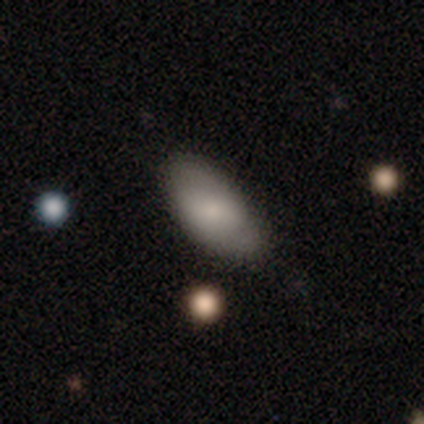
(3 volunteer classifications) Smooth or featured?
  - smooth: 100% *
  - featured or disk: 0%
  - star or artifact: 0%
How rounded?
  - in between: 100% *
  - round: 0%
  - cigar-shaped: 0%
Merging?
  - none: 67% *
  - minor disturbance: 33%
  - major disturbance: 0%
  - merger: 0%